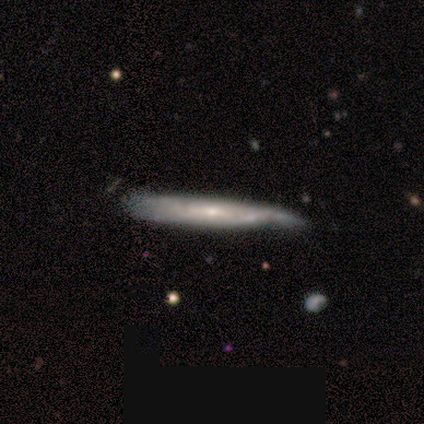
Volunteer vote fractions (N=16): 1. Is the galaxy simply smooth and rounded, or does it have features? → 62% featured or disk, 38% smooth, 0% star or artifact.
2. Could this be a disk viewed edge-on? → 70% yes, 30% no.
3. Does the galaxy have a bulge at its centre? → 57% none, 29% rounded, 14% boxy.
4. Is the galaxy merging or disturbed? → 50% none, 31% minor disturbance, 12% merger, 6% major disturbance.